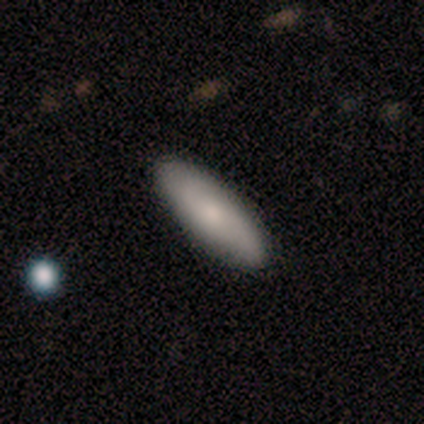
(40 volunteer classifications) Smooth or featured? 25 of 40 (62%) said smooth. How rounded? 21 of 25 (84%) said in between. Merging? 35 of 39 (90%) said none.